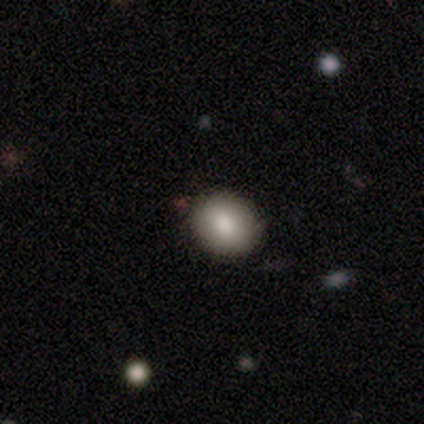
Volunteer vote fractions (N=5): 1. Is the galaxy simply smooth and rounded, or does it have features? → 100% smooth, 0% featured or disk, 0% star or artifact.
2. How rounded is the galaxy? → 60% round, 40% in between, 0% cigar-shaped.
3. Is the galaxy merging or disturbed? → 100% none, 0% minor disturbance, 0% major disturbance, 0% merger.